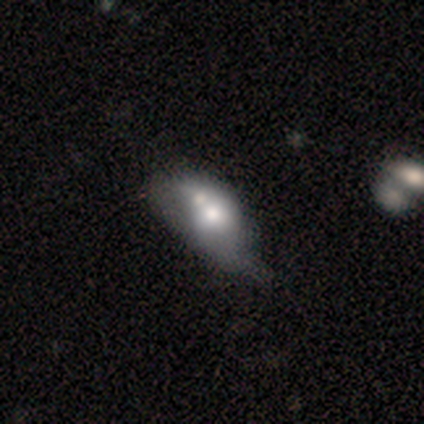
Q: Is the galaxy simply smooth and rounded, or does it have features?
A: smooth — 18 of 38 (47%, tied with featured or disk).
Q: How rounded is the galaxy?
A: in between — 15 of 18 (83%).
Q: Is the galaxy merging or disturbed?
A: merger — 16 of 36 (44%).